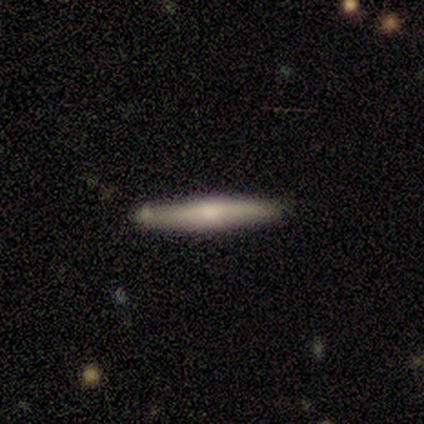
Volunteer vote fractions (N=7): This is likely a featured or disk galaxy (71%). It is clearly viewed edge-on (100%). Edge-on bulge: likely rounded (60%). Merging: clearly none (86%).